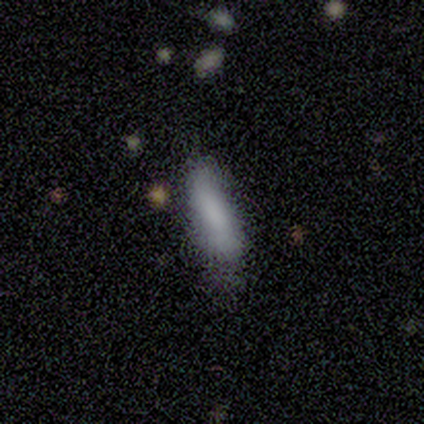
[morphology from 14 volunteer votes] Smooth or featured? smooth (93%)
How rounded? in between (62%)
Merging? none (62%)